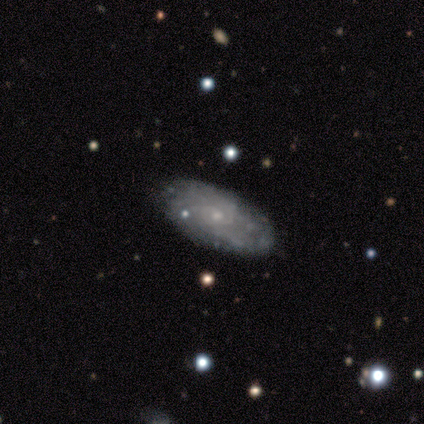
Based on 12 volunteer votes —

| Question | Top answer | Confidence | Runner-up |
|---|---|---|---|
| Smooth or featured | featured or disk | 75% | smooth (25%) |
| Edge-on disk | no | 100% | — |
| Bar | no | 67% | weak (33%) |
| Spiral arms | yes | 78% | no (22%) |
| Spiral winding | tight | 43% | tied: medium (43%) |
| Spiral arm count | can't tell | 86% | 4 (14%) |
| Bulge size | small | 78% | moderate (11%) |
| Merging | none | 92% | minor disturbance (8%) |